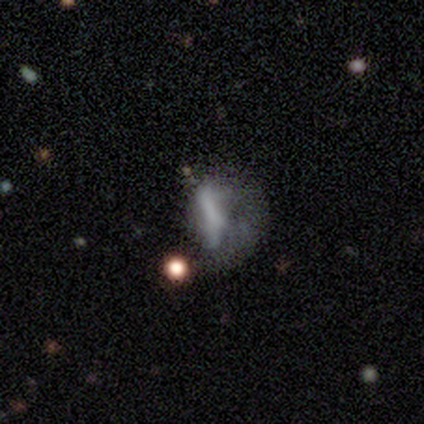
This is marginally a featured or disk galaxy (39%). It is clearly not viewed edge-on (100%). Bar: clearly no (86%). Spiral arm pattern: clearly no (93%). Central bulge: likely none (71%). Merging: possibly major disturbance (59%).